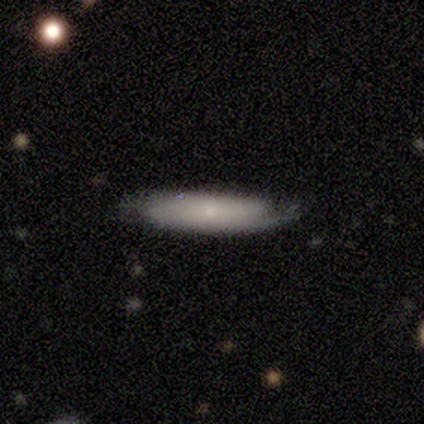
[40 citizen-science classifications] Smooth or featured? smooth (60%)
How rounded? cigar-shaped (88%)
Merging? none (79%)